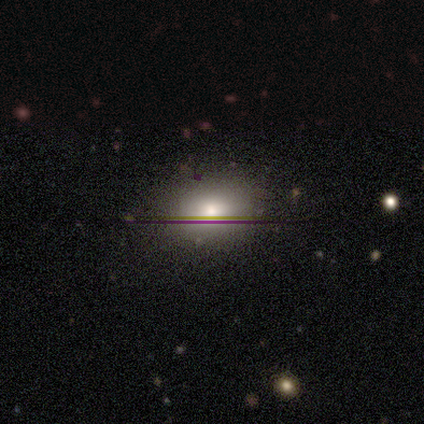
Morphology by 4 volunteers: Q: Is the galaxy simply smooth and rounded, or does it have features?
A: smooth — 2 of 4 (50%, tied with star or artifact).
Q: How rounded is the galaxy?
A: in between — 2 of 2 (100%).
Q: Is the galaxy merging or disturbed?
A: none — 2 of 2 (100%).